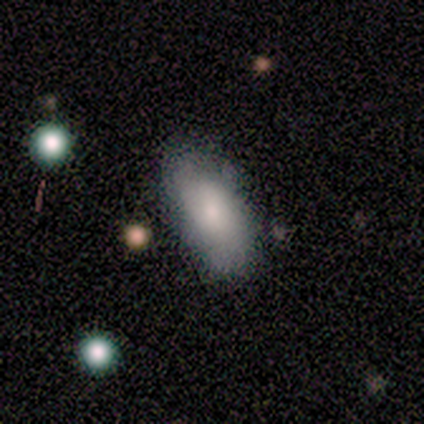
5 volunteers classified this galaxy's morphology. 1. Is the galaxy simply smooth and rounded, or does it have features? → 60% featured or disk, 40% smooth, 0% star or artifact.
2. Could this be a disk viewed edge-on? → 100% no, 0% yes.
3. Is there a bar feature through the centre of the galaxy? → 100% no, 0% strong, 0% weak.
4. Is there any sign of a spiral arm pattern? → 100% no, 0% yes.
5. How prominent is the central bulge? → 67% moderate, 33% small, 0% dominant, 0% large, 0% none.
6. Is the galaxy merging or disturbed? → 100% none, 0% minor disturbance, 0% major disturbance, 0% merger.